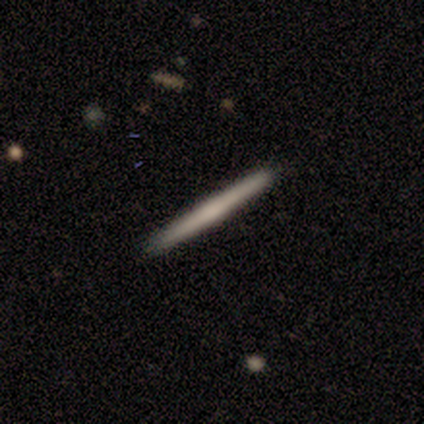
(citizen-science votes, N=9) A featured or disk galaxy (56%) viewed edge-on (100%) with a rounded central bulge (60%).

Vote fractions:
- Smooth or featured? featured or disk: 56% / smooth: 33% / star or artifact: 11%
- Edge-on disk? yes: 100% / no: 0%
- Edge-on bulge? rounded: 60% / boxy: 20% / none: 20%
- Merging? none: 100% / minor disturbance: 0% / major disturbance: 0% / merger: 0%